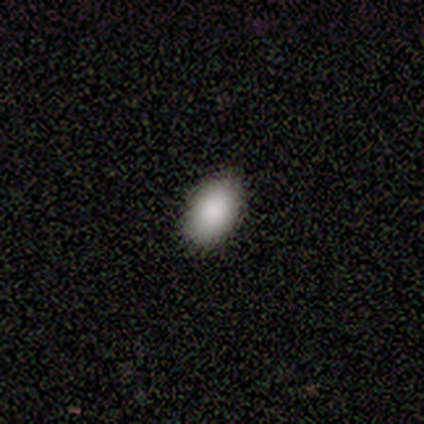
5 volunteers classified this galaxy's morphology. Smooth or featured? smooth (100%)
How rounded? in between (100%)
Merging? none (100%)